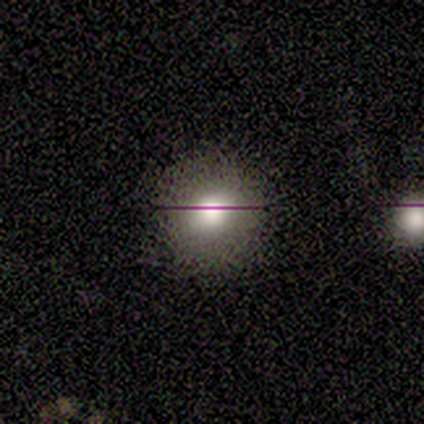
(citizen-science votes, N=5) Morphology: type=smooth (80%); roundness=round (75%); merging=none (80%).